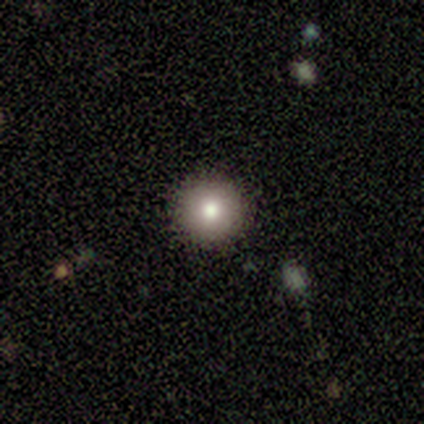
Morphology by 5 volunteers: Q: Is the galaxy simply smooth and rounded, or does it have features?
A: smooth — 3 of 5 (60%).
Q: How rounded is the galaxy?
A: round — 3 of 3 (100%).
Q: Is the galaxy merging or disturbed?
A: none — 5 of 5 (100%).